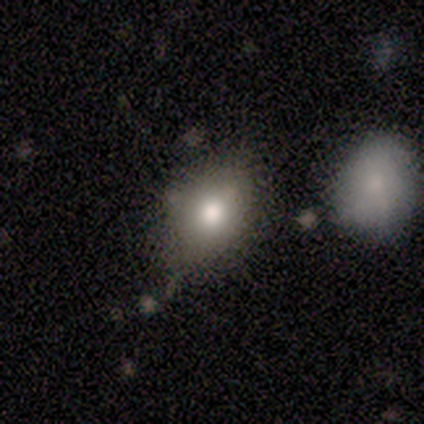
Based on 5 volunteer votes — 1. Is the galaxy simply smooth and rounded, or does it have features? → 100% smooth, 0% featured or disk, 0% star or artifact.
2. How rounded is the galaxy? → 80% in between, 20% round, 0% cigar-shaped.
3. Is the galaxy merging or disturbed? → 60% none, 40% merger, 0% minor disturbance, 0% major disturbance.